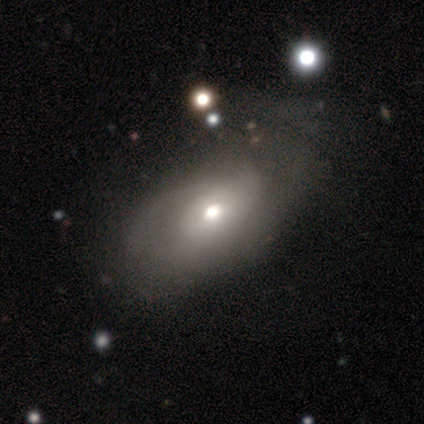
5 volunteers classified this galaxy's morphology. Smooth or featured?
  - featured or disk: 60% *
  - smooth: 40%
  - star or artifact: 0%
Edge-on disk?
  - no: 100% *
  - yes: 0%
Bar?
  - no: 100% *
  - strong: 0%
  - weak: 0%
Spiral arms?
  - yes: 67% *
  - no: 33%
Spiral winding?
  - tight: 100% *
  - medium: 0%
  - loose: 0%
Spiral arm count?
  - 2: 50% * (tied)
  - can't tell: 50% * (tied)
  - 1: 0%
  - 3: 0%
  - 4: 0%
  - more than 4: 0%
Bulge size?
  - moderate: 67% *
  - small: 33%
  - dominant: 0%
  - large: 0%
  - none: 0%
Merging?
  - none: 60% *
  - minor disturbance: 20%
  - major disturbance: 20%
  - merger: 0%